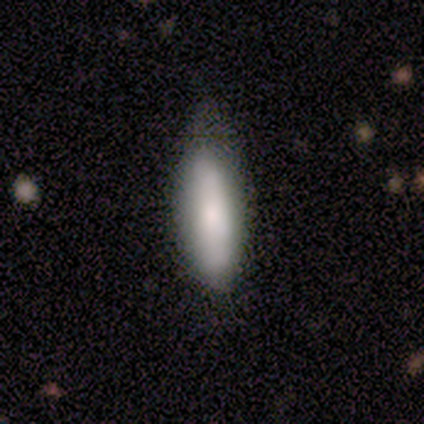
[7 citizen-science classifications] Smooth or featured? smooth (86%)
How rounded? cigar-shaped (67%)
Merging? none (83%)